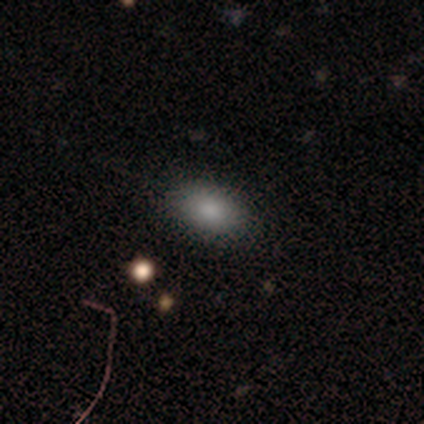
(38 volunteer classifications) smooth-or-featured: smooth: 84% | star or artifact: 11% | featured or disk: 5%
  how-rounded: in between: 88% | round: 12% | cigar-shaped: 0%
  merging: none: 82% | minor disturbance: 15% | major disturbance: 3% | merger: 0%